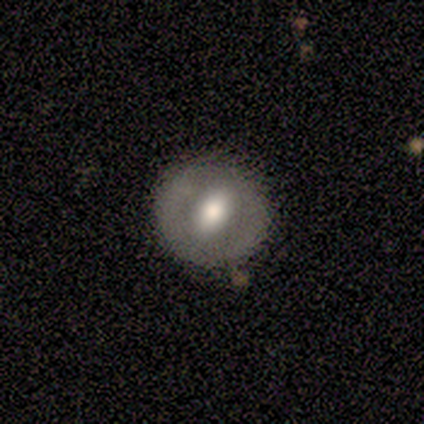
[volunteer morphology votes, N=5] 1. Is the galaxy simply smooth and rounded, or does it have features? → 80% smooth, 20% featured or disk, 0% star or artifact.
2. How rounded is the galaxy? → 100% round, 0% in between, 0% cigar-shaped.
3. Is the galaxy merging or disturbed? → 80% none, 20% minor disturbance, 0% major disturbance, 0% merger.